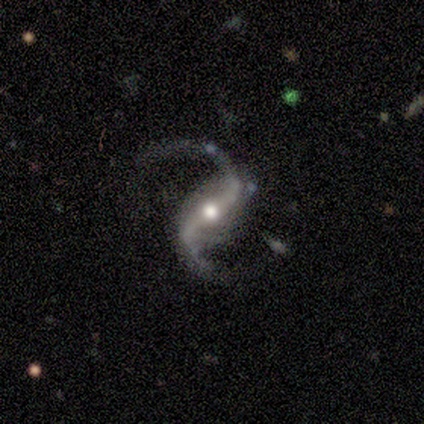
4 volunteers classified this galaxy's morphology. smooth_or_featured: featured or disk (p=1.00)
disk_edge_on: no (p=1.00)
bar: strong (p=0.75) [alt: no p=0.25]
has_spiral_arms: yes (p=1.00)
spiral_winding: loose (p=0.75) [alt: medium p=0.25]
spiral_arm_count: 2 (p=1.00)
bulge_size: moderate (p=0.75) [alt: small p=0.25]
merging: none (p=1.00)